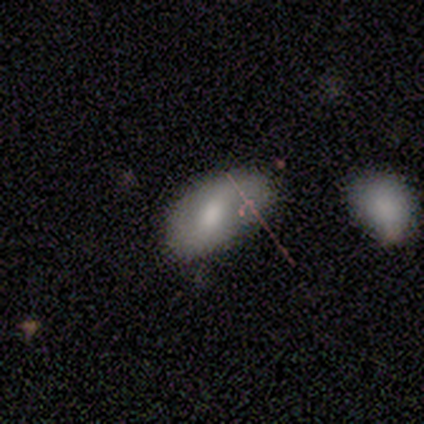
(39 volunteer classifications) Smooth or featured?
  - smooth: 56% *
  - featured or disk: 38%
  - star or artifact: 5%
How rounded?
  - in between: 91% *
  - round: 9%
  - cigar-shaped: 0%
Merging?
  - none: 65% *
  - minor disturbance: 27%
  - major disturbance: 5%
  - merger: 3%